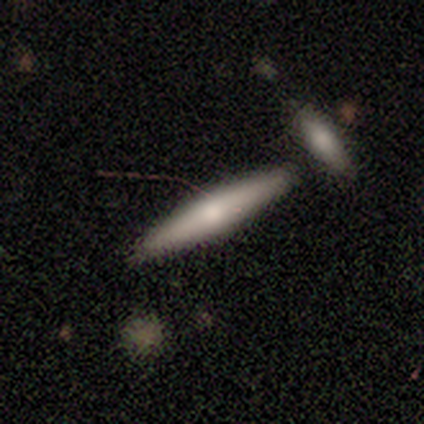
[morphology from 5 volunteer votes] Volunteers were most divided on "smooth or featured": smooth: 60%, featured or disk: 40%, star or artifact: 0%. More confident: how rounded — cigar-shaped (100%); merging — none (100%).